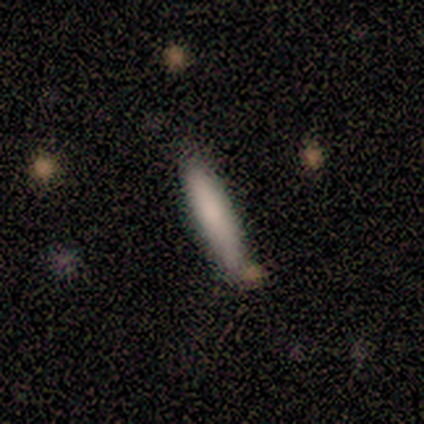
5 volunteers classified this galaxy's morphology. Smooth or featured: smooth — 80% (featured or disk — 20%)
How rounded: cigar-shaped — 100%
Merging: none — 60% (minor disturbance — 40%)